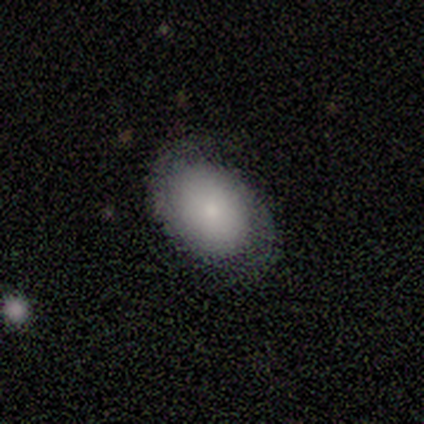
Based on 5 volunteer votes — This appears to be a smooth galaxy with no disk features (60%) that is in between round and cigar-shaped (67%). Merging: none (80%).